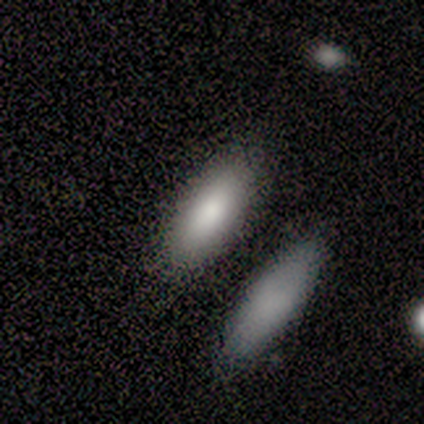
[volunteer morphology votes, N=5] smooth 80%, star or artifact 20%, featured or disk 0%. Down the decision tree: how rounded — in between (100%); merging — none (75%).